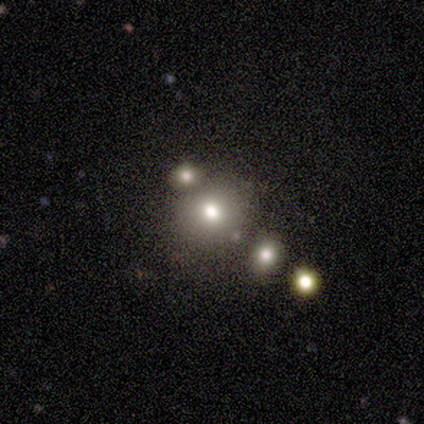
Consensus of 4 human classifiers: Q: Smooth or featured?
A: smooth (50%); tied with: featured or disk (50%)
Q: How rounded?
A: round (100%)
Q: Merging?
A: none (75%); runner-up: merger (25%)